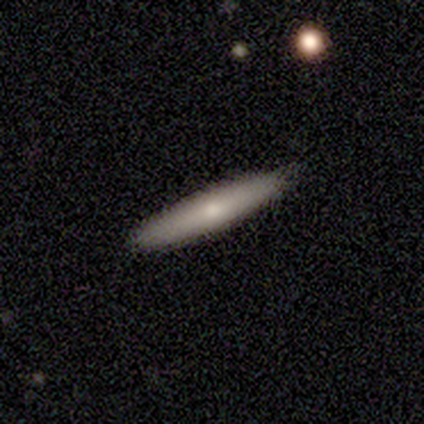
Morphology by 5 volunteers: type=smooth (40%, tied with featured or disk); roundness=cigar-shaped (100%); merging=none (100%).